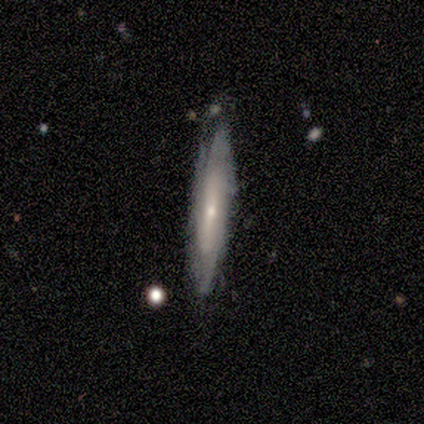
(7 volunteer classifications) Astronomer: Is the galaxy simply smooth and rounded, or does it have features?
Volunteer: featured or disk — 43% (runner-up: smooth, 29%).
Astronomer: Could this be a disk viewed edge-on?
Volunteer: no — 67%.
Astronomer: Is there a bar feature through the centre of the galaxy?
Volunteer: weak — 50%, tied with no at 50%.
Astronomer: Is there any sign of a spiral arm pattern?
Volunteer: yes — 100%.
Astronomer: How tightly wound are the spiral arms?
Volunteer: tight — 50%, tied with medium at 50%.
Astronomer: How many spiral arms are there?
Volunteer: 3 — 50%, tied with can't tell at 50%.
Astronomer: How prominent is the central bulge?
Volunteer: moderate — 50%, tied with small at 50%.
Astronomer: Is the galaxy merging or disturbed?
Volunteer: none — 80%.